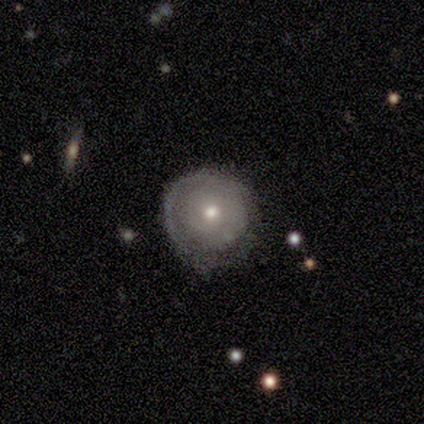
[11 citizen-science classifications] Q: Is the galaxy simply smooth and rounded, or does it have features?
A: featured or disk — 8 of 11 (73%).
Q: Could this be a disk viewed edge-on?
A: no — 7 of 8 (88%).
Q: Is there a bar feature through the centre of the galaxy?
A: no — 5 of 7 (71%).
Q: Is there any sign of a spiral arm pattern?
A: yes — 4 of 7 (57%).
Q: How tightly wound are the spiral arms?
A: tight — 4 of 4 (100%).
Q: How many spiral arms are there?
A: can't tell — 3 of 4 (75%).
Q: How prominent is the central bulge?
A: moderate — 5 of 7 (71%).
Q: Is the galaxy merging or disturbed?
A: minor disturbance — 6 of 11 (55%).